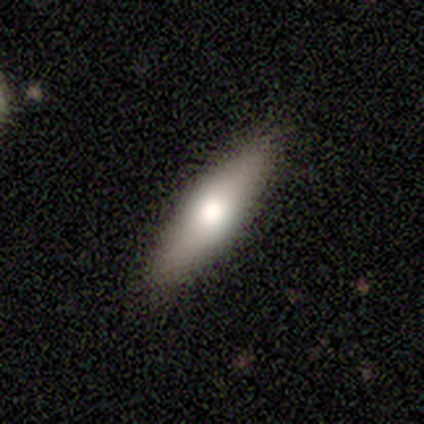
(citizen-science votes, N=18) Overall: smooth (56%; featured or disk 33%). How rounded: in between (70%; cigar-shaped 30%). Merging: none (100%).